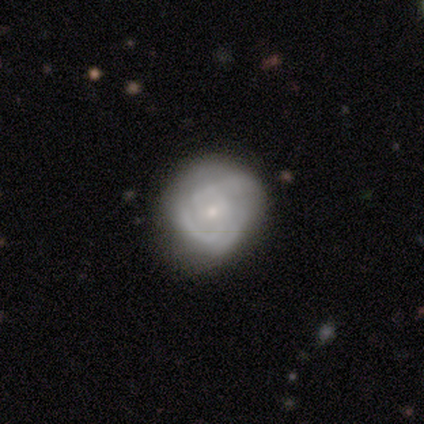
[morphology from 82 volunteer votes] smooth-or-featured: featured or disk: 70% | smooth: 26% | star or artifact: 5%
  disk-edge-on: no: 98% | yes: 2%
    bar: no: 64% | weak: 34% | strong: 2%
    has-spiral-arms: yes: 86% | no: 14%
      spiral-winding: tight: 65% | medium: 21% | loose: 15%
      spiral-arm-count: can't tell: 52% | 2: 23% | 3: 21% | 1: 2% | 4: 2% | more than 4: 0%
    bulge-size: small: 75% | moderate: 20% | none: 4% | large: 2% | dominant: 0%
  merging: none: 64% | minor disturbance: 29% | major disturbance: 6% | merger: 0%